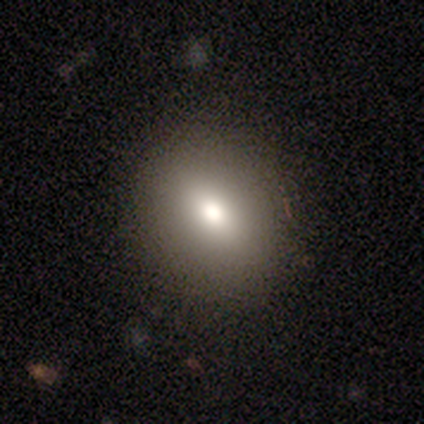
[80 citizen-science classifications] Smooth or featured? smooth (79%)
How rounded? round (60%)
Merging? none (46%)